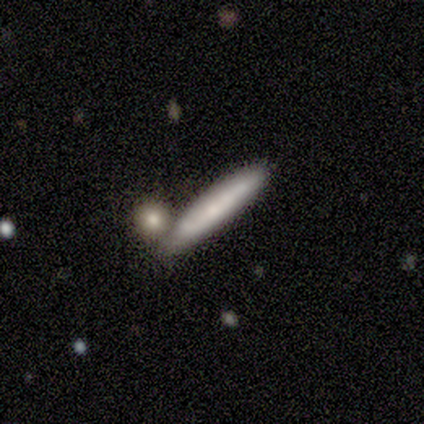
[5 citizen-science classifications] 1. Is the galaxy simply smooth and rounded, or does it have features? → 60% smooth, 40% featured or disk, 0% star or artifact.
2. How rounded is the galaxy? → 100% cigar-shaped, 0% round, 0% in between.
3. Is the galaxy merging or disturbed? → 40% none (tied), 40% minor disturbance (tied), 20% merger, 0% major disturbance.